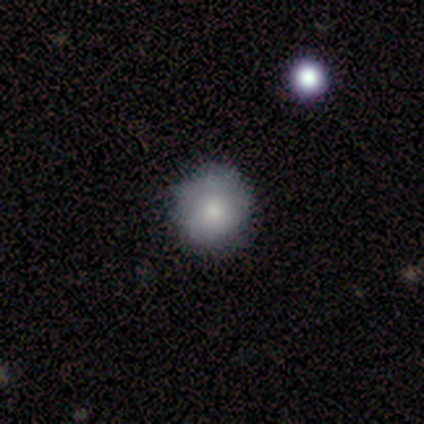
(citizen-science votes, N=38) A smooth galaxy with no disk features (71%) that is round (96%).

Vote fractions:
- Smooth or featured? smooth: 71% / featured or disk: 21% / star or artifact: 8%
- How rounded? round: 96% / in between: 4% / cigar-shaped: 0%
- Merging? none: 80% / minor disturbance: 17% / merger: 3% / major disturbance: 0%